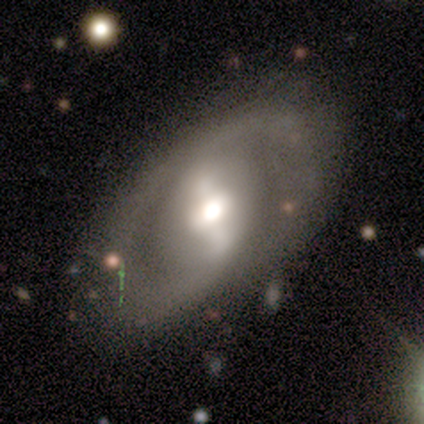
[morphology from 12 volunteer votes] Smooth or featured? featured or disk (67%)
Edge-on disk? no (100%)
Bar? strong (50%, tied with weak)
Spiral arms? yes (75%)
Spiral winding? loose (50%)
Spiral arm count? 2 (100%)
Bulge size? moderate (62%)
Merging? none (80%)